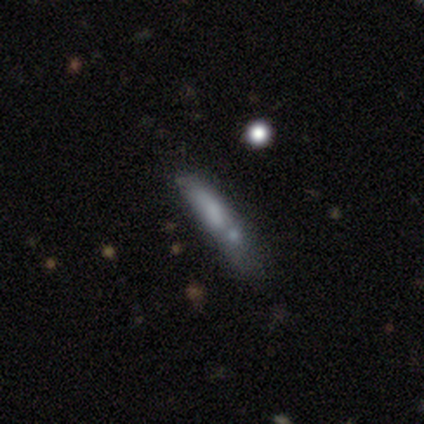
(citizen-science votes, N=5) Smooth or featured: smooth — 60% (featured or disk — 20%)
How rounded: cigar-shaped — 67% (in between — 33%)
Merging: none — 50% (tied with minor disturbance — 50%)